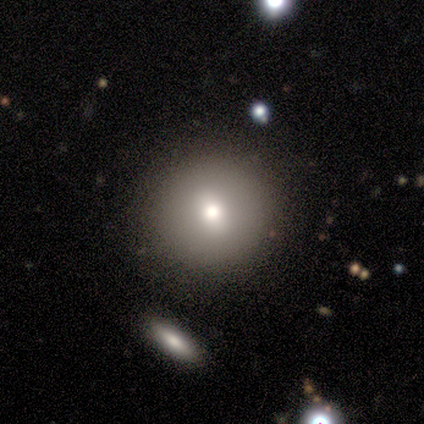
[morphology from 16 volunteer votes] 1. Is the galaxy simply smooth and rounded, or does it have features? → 81% smooth, 12% featured or disk, 6% star or artifact.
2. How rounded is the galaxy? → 100% round, 0% in between, 0% cigar-shaped.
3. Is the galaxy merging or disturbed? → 100% none, 0% minor disturbance, 0% major disturbance, 0% merger.